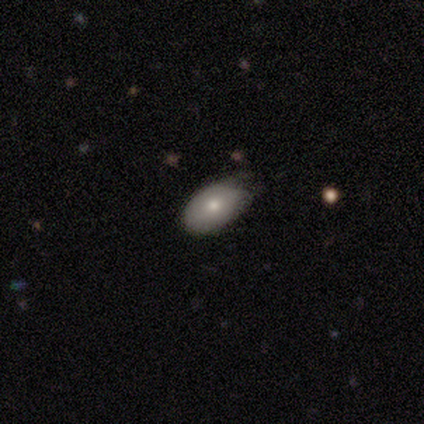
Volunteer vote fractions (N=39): This appears to be a smooth galaxy with no disk features (67%) that is in between round and cigar-shaped (92%). Merging: minor disturbance (50%).